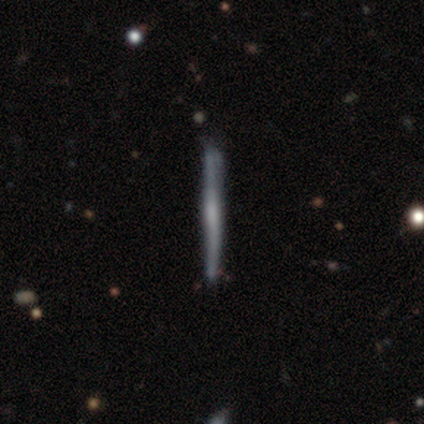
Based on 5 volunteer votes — featured or disk 60%, smooth 20%, star or artifact 20%. Down the decision tree: edge-on disk — yes (100%); edge-on bulge — boxy (33%, tied with none and rounded); merging — none (50%).